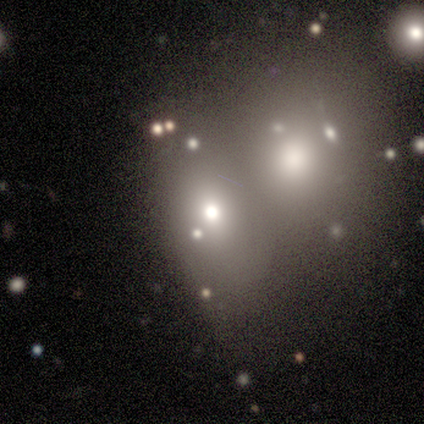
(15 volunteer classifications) Smooth or featured? smooth (60%)
How rounded? in between (67%)
Merging? merger (75%)